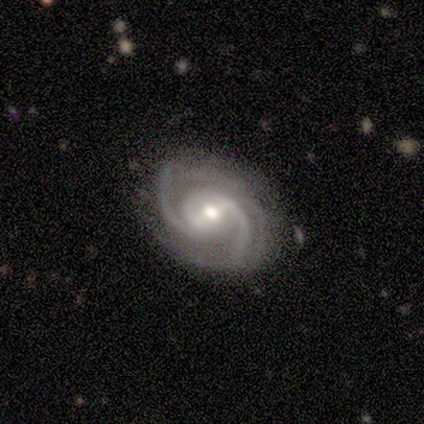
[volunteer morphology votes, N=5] Smooth or featured?
  - featured or disk: 100% *
  - smooth: 0%
  - star or artifact: 0%
Edge-on disk?
  - no: 100% *
  - yes: 0%
Bar?
  - weak: 40% * (tied)
  - no: 40% * (tied)
  - strong: 20%
Spiral arms?
  - yes: 100% *
  - no: 0%
Spiral winding?
  - medium: 80% *
  - tight: 20%
  - loose: 0%
Spiral arm count?
  - 2: 80% *
  - 4: 20%
  - 1: 0%
  - 3: 0%
  - more than 4: 0%
  - can't tell: 0%
Bulge size?
  - small: 60% *
  - moderate: 40%
  - dominant: 0%
  - large: 0%
  - none: 0%
Merging?
  - none: 60% *
  - minor disturbance: 40%
  - major disturbance: 0%
  - merger: 0%